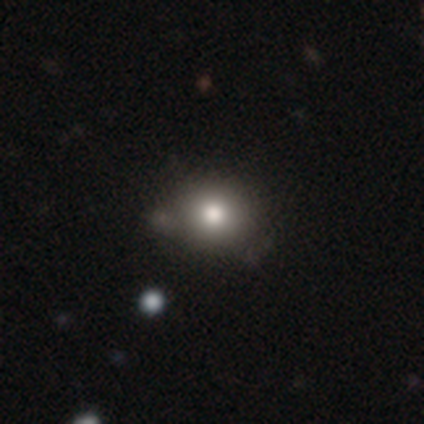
Q: Smooth or featured?
A: smooth (80%); runner-up: featured or disk (20%)
Q: How rounded?
A: round (75%); runner-up: cigar-shaped (25%)
Q: Merging?
A: none (100%)